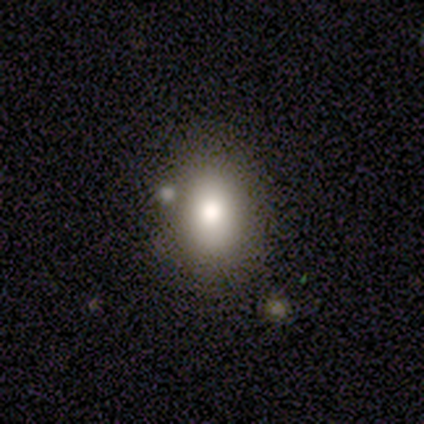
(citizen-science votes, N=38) smooth 89%, featured or disk 11%, star or artifact 0%. Down the decision tree: how rounded — in between (68%); merging — none (61%).